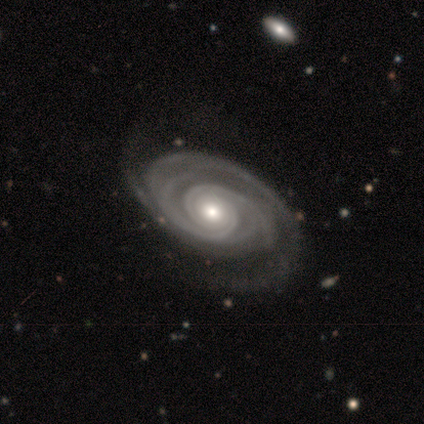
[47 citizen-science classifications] Overall: featured or disk (96%). Edge-on disk: no (98%). Bar: no (86%). Spiral arms: yes (100%). Spiral arm count: 2 (36%; more than 4 18%). Spiral winding: tight (82%). Bulge size: moderate (73%). Merging: none (84%).